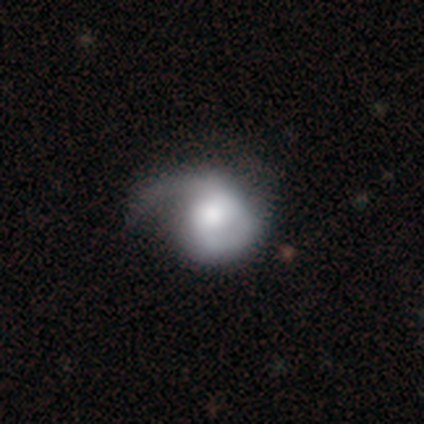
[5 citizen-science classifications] featured or disk 60%, smooth 40%, star or artifact 0%. Down the decision tree: edge-on disk — no (100%); bar — no (100%); spiral arms — no (67%); bulge size — dominant (33%, tied with moderate and small); merging — major disturbance (60%).